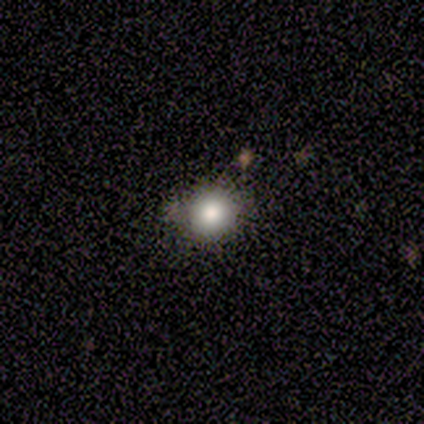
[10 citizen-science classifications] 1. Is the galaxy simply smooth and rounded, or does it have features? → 80% smooth, 10% featured or disk, 10% star or artifact.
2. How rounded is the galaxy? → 75% round, 25% in between, 0% cigar-shaped.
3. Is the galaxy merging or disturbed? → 78% none, 11% minor disturbance, 11% major disturbance, 0% merger.